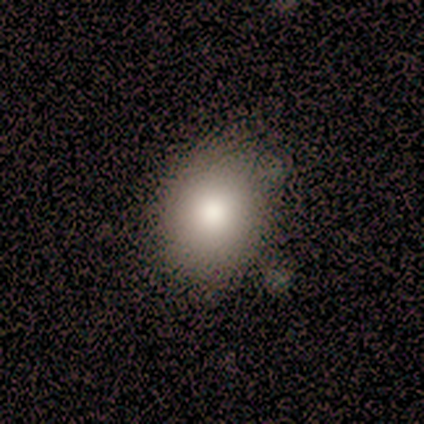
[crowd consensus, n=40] Overall: smooth (85%). How rounded: in between (56%; round 44%). Merging: none (41%; minor disturbance 14%).